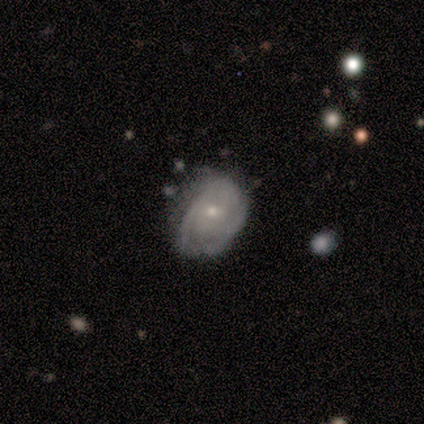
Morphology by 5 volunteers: Overall: featured or disk (100%). Edge-on disk: no (100%). Bar: no (60%; weak 40%). Spiral arms: yes (80%). Spiral arm count: can't tell (75%). Spiral winding: tight (50%, tied with medium). Bulge size: small (60%; moderate 40%). Merging: none (100%).